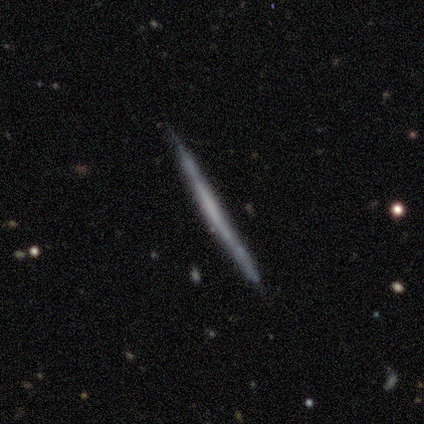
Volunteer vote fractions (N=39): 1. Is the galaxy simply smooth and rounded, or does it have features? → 67% featured or disk, 33% smooth, 0% star or artifact.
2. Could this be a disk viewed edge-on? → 92% yes, 8% no.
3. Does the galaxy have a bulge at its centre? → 96% none, 4% boxy, 0% rounded.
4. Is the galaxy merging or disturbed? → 85% none, 15% minor disturbance, 0% major disturbance, 0% merger.